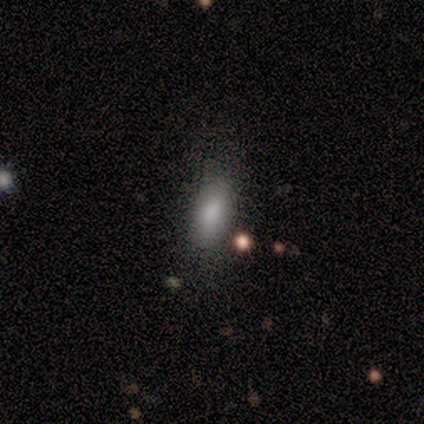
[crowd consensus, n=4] smooth_or_featured: smooth (p=0.50) [alt: featured or disk p=0.25]
how_rounded: in between (p=1.00)
merging: none (p=0.33) [tied with: minor disturbance p=0.33, major disturbance p=0.33]